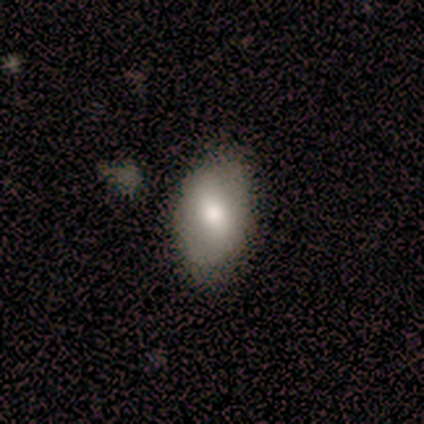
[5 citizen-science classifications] smooth_or_featured: featured or disk (p=0.60) [alt: smooth p=0.40]
disk_edge_on: no (p=0.67) [alt: yes p=0.33]
bar: weak (p=0.50) [tied with: no p=0.50]
has_spiral_arms: yes (p=0.50) [tied with: no p=0.50]
spiral_winding: loose (p=1.00)
spiral_arm_count: 2 (p=1.00)
bulge_size: moderate (p=1.00)
merging: none (p=1.00)